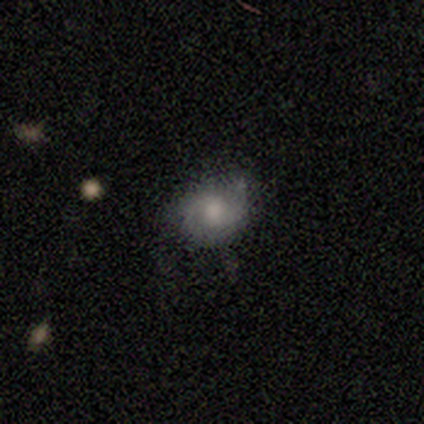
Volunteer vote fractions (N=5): A smooth galaxy with no disk features (80%) that is round (50%, tied with in between).

Vote fractions:
- Smooth or featured? smooth: 80% / featured or disk: 20% / star or artifact: 0%
- How rounded? round: 50% (tied) / in between: 50% (tied) / cigar-shaped: 0%
- Merging? minor disturbance: 60% / none: 40% / major disturbance: 0% / merger: 0%